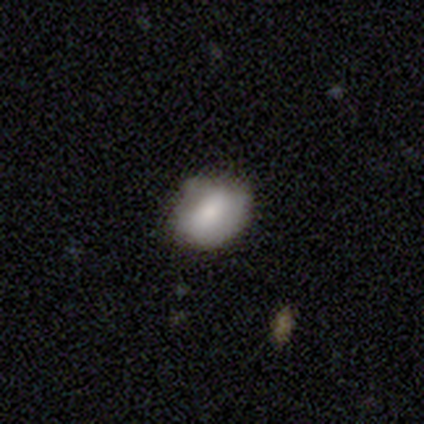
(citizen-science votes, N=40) Q: Smooth or featured?
A: smooth (70%); runner-up: featured or disk (20%)
Q: How rounded?
A: in between (89%); runner-up: round (11%)
Q: Merging?
A: none (47%); runner-up: minor disturbance (39%)